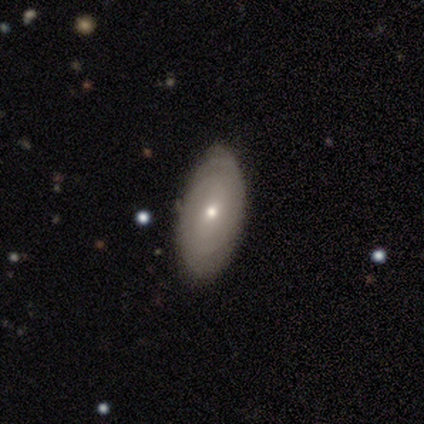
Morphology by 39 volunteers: A smooth galaxy with no disk features (51%) that is in between round and cigar-shaped (90%).

Vote fractions:
- Smooth or featured? smooth: 51% / featured or disk: 46% / star or artifact: 3%
- How rounded? in between: 90% / round: 10% / cigar-shaped: 0%
- Merging? none: 84% / minor disturbance: 13% / merger: 3% / major disturbance: 0%